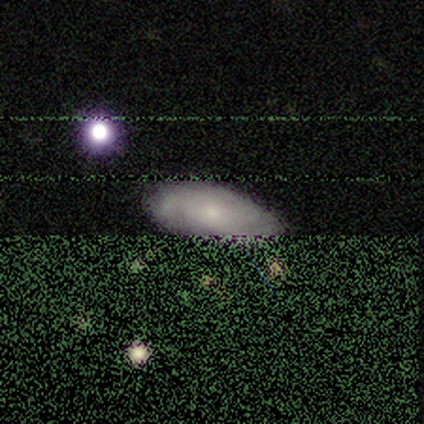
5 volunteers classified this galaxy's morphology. featured or disk 80%, smooth 20%, star or artifact 0%. Down the decision tree: edge-on disk — no (100%); bar — no (75%); spiral arms — yes (75%); spiral arm count — can't tell (67%); spiral winding — tight (67%); bulge size — moderate (75%); merging — none (100%).